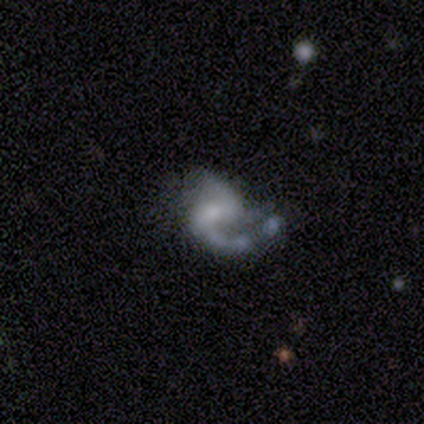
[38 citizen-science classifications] Smooth or featured: featured or disk — 84% (star or artifact — 13%)
Edge-on disk: no — 91% (yes — 9%)
Bar: weak — 48% (no — 34%)
Spiral arms: yes — 97% (no — 3%)
Spiral winding: loose — 61% (medium — 32%)
Spiral arm count: 2 — 64% (1 — 32%)
Bulge size: small — 59% (moderate — 21%)
Merging: major disturbance — 39% (none — 33%)